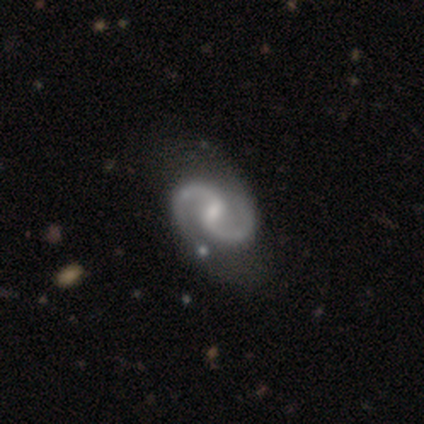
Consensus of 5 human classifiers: This appears to be a featured or disk galaxy (100%) with a weak bar (60%), 2 (100%) tight (40%, tied with medium) spiral arms (100%) and a small central bulge (60%). Merging: none (40%, tied with minor disturbance).